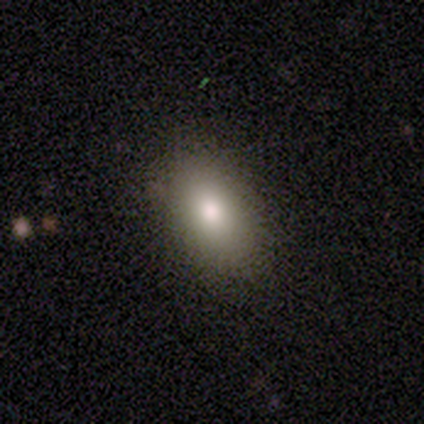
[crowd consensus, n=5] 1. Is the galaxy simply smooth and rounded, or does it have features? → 80% smooth, 20% featured or disk, 0% star or artifact.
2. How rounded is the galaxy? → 100% in between, 0% round, 0% cigar-shaped.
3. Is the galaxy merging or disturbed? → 100% none, 0% minor disturbance, 0% major disturbance, 0% merger.